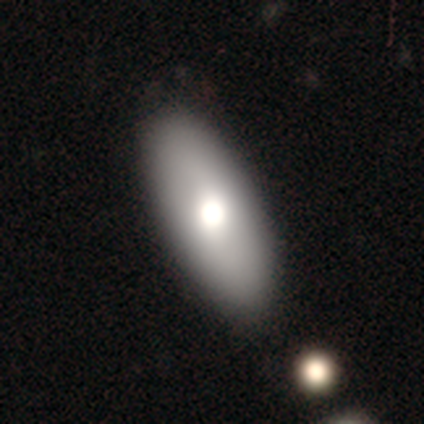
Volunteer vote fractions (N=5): This appears to be a smooth galaxy with no disk features (40%, tied with featured or disk) that is in between round and cigar-shaped (100%). Merging: none (100%).